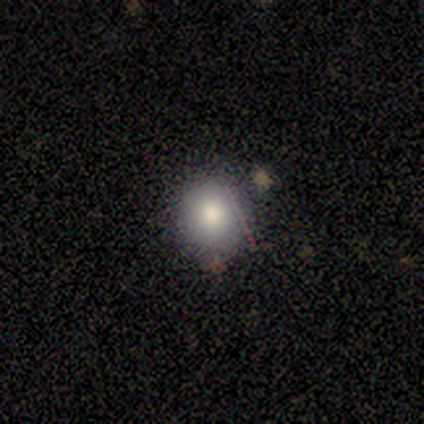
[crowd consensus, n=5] Smooth or featured?
  - smooth: 100% *
  - featured or disk: 0%
  - star or artifact: 0%
How rounded?
  - round: 80% *
  - cigar-shaped: 20%
  - in between: 0%
Merging?
  - none: 80% *
  - minor disturbance: 20%
  - major disturbance: 0%
  - merger: 0%